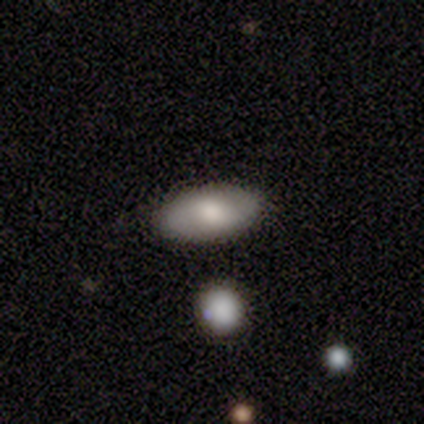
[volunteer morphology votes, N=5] Smooth or featured: smooth — 40% (tied with featured or disk — 40%)
How rounded: in between — 100%
Merging: none — 50% (tied with minor disturbance — 50%)